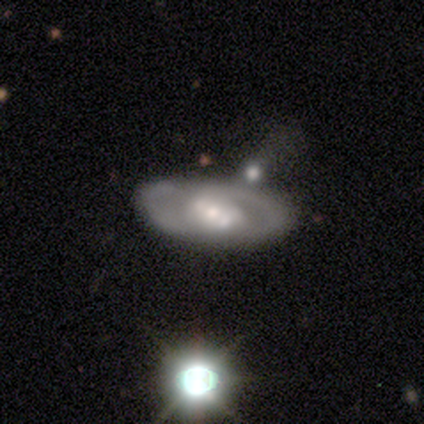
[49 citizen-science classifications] Smooth or featured?
  - featured or disk: 82% *
  - smooth: 16%
  - star or artifact: 2%
Edge-on disk?
  - no: 98% *
  - yes: 2%
Bar?
  - no: 49% *
  - weak: 36%
  - strong: 15%
Spiral arms?
  - yes: 54% *
  - no: 46%
Spiral winding?
  - medium: 57% *
  - tight: 24%
  - loose: 19%
Spiral arm count?
  - 2: 62% *
  - can't tell: 29%
  - 1: 10%
  - 3: 0%
  - 4: 0%
  - more than 4: 0%
Bulge size?
  - moderate: 64% *
  - large: 15%
  - small: 15%
  - dominant: 3%
  - none: 3%
Merging?
  - none: 58% *
  - minor disturbance: 21%
  - merger: 12%
  - major disturbance: 8%